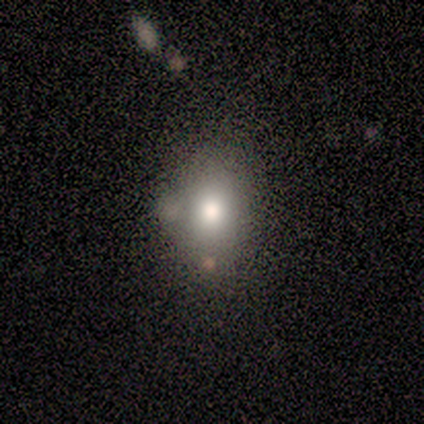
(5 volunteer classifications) This appears to be a smooth galaxy with no disk features (100%) that is in between round and cigar-shaped (60%). Merging: none (60%).